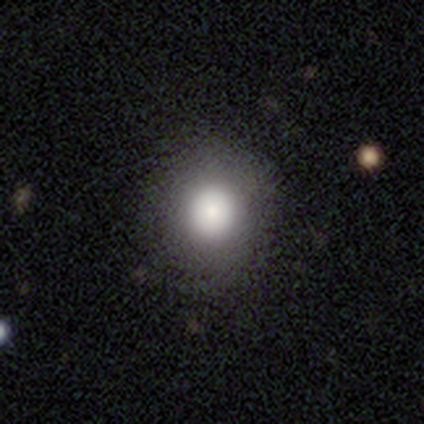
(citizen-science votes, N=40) smooth_or_featured: smooth (p=0.72) [alt: featured or disk p=0.23]
how_rounded: round (p=0.83) [alt: in between p=0.17]
merging: none (p=0.87) [alt: minor disturbance p=0.11]